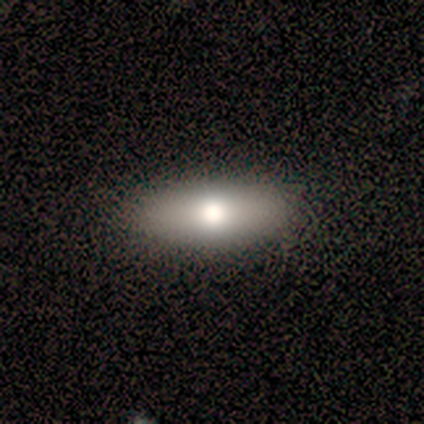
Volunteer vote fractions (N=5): smooth_or_featured: smooth (p=0.60) [alt: featured or disk p=0.40]
how_rounded: in between (p=0.67) [alt: cigar-shaped p=0.33]
merging: none (p=1.00)